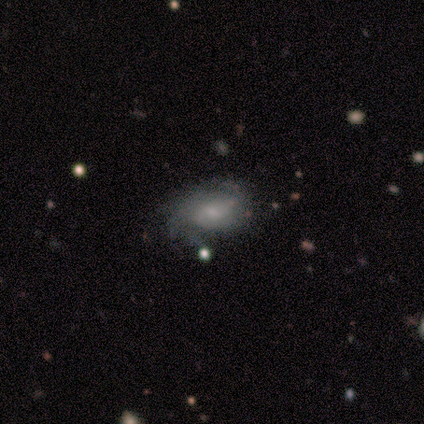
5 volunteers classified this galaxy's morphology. type=featured or disk (60%); edge-on=no (100%); bar=weak (67%); spiral arms=yes (100%); winding=medium (67%); arm count=can't tell (67%); bulge=large (33%, tied with moderate and small); merging=none (60%).